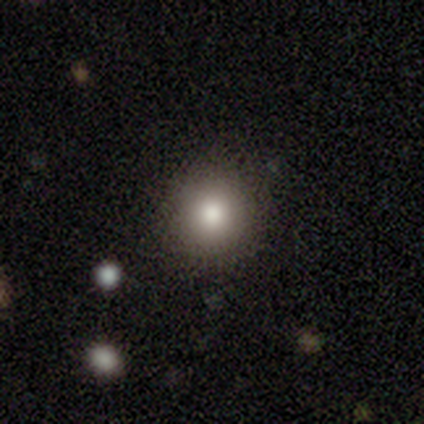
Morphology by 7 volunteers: Volunteers were most divided on "how rounded": round: 83%, in between: 17%, cigar-shaped: 0%. More confident: merging — none (100%); smooth or featured — smooth (86%).